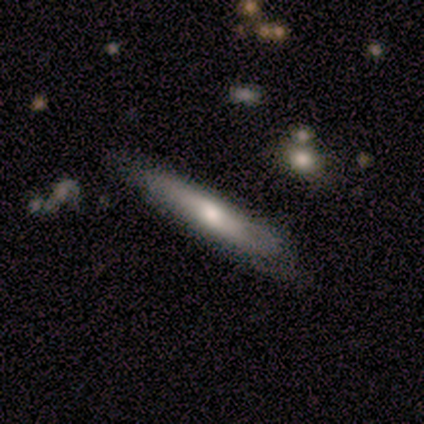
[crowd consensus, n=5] Overall: smooth (60%; featured or disk 20%). How rounded: cigar-shaped (100%). Merging: none (50%, tied with minor disturbance).